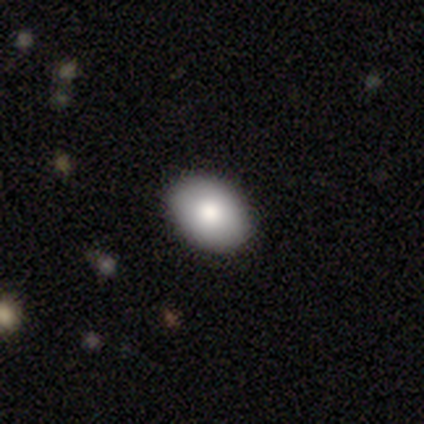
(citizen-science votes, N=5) Smooth or featured? 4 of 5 (80%) said smooth. How rounded? 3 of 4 (75%) said in between. Merging? 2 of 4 (50%, tied with minor disturbance) said none.